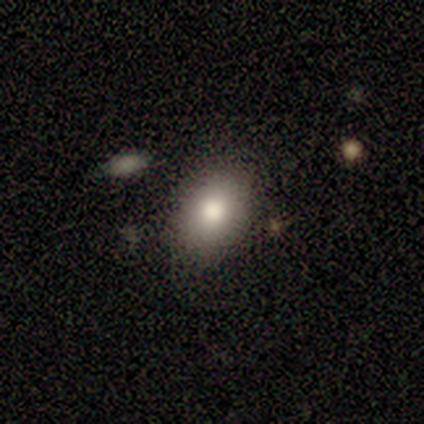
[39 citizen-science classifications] Smooth or featured? 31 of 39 (79%) said smooth. How rounded? 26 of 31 (84%) said in between. Merging? 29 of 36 (81%) said none.